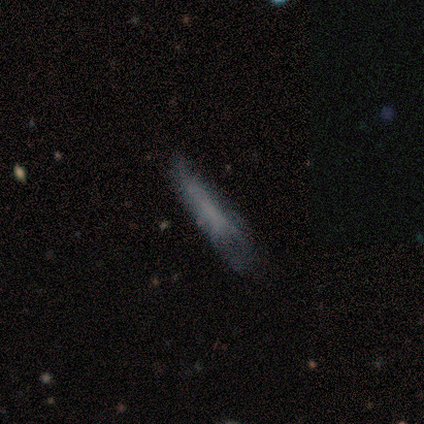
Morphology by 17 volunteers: This is likely a smooth galaxy (65%). How rounded: clearly cigar-shaped (91%). Merging: possibly none (50%).